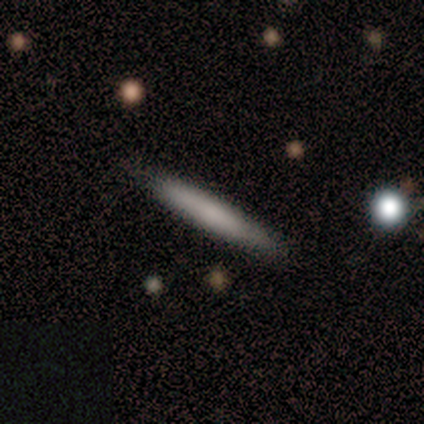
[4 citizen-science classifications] A featured or disk galaxy (75%) viewed edge-on (100%) with no central bulge (67%).

Vote fractions:
- Smooth or featured? featured or disk: 75% / smooth: 25% / star or artifact: 0%
- Edge-on disk? yes: 100% / no: 0%
- Edge-on bulge? none: 67% / boxy: 33% / rounded: 0%
- Merging? none: 50% (tied) / minor disturbance: 50% (tied) / major disturbance: 0% / merger: 0%